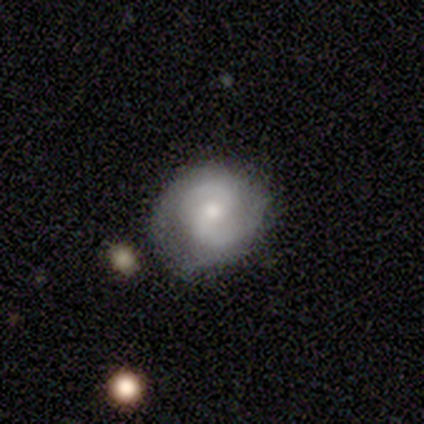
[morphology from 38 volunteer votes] A featured or disk galaxy (82%) with a weak bar (55%), 2 (100%) medium (43%) spiral arms (97%) and a moderate central bulge (45%, tied with small). Merging: none (70%).